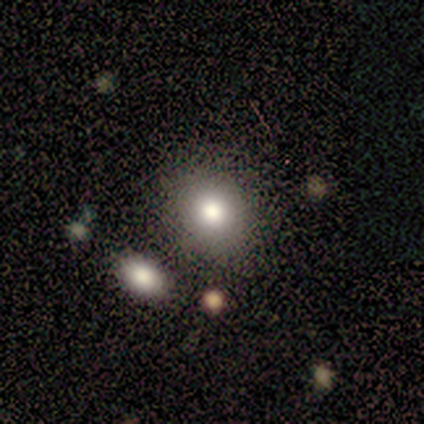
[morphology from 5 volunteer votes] smooth 80%, featured or disk 20%, star or artifact 0%. Down the decision tree: how rounded — round (50%, tied with in between); merging — none (60%).